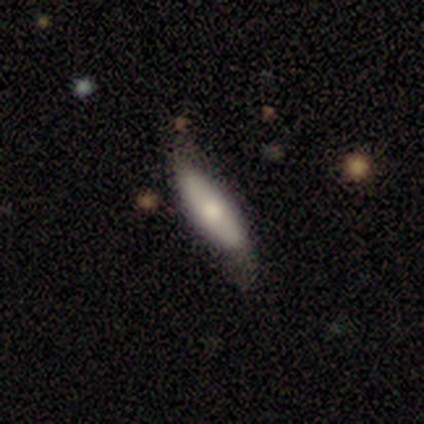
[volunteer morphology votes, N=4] Volunteers were most divided on "merging": minor disturbance: 50%, none: 25%, major disturbance: 25%, merger: 0%. More confident: how rounded — cigar-shaped (100%); smooth or featured — smooth (75%).